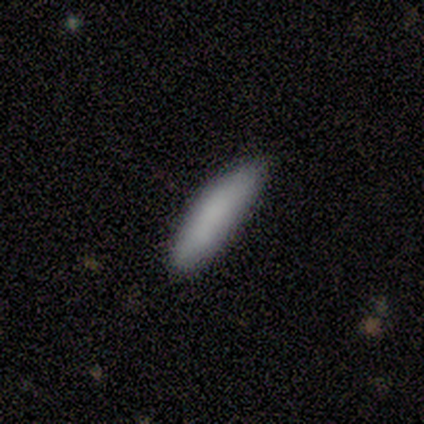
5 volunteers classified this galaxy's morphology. Q: Smooth or featured?
A: smooth (80%); runner-up: featured or disk (20%)
Q: How rounded?
A: in between (50%); tied with: cigar-shaped (50%)
Q: Merging?
A: none (80%); runner-up: minor disturbance (20%)